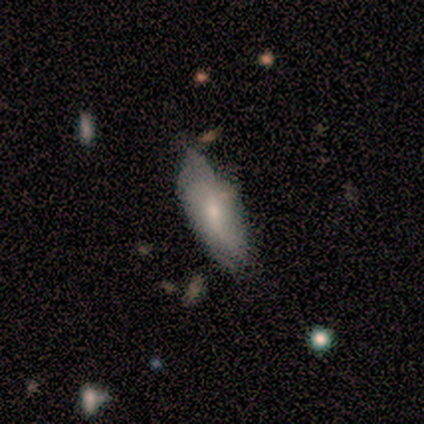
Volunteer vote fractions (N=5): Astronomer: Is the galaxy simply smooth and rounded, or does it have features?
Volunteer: smooth — 60% (runner-up: featured or disk, 40%).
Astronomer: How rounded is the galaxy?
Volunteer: in between — 100%.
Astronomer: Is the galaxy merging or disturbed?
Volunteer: minor disturbance — 60% (runner-up: none, 40%).